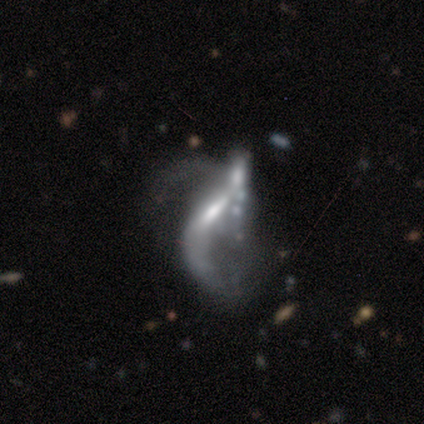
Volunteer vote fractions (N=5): Smooth or featured: featured or disk — 80% (smooth — 20%)
Edge-on disk: no — 100%
Bar: weak — 50% (tied with no — 50%)
Spiral arms: no — 75% (yes — 25%)
Bulge size: dominant — 25% (tied with moderate — 25%; small — 25%; none — 25%)
Merging: major disturbance — 80% (none — 20%)